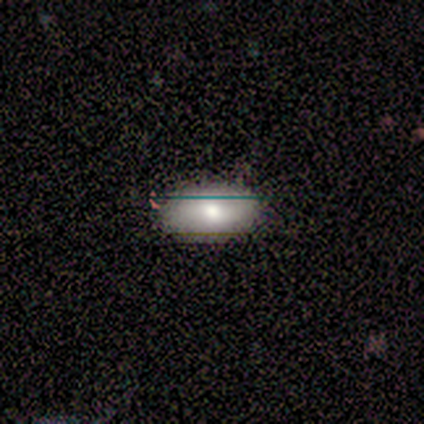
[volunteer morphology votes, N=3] smooth_or_featured: smooth (p=0.67) [alt: star or artifact p=0.33]
how_rounded: in between (p=1.00)
merging: none (p=1.00)